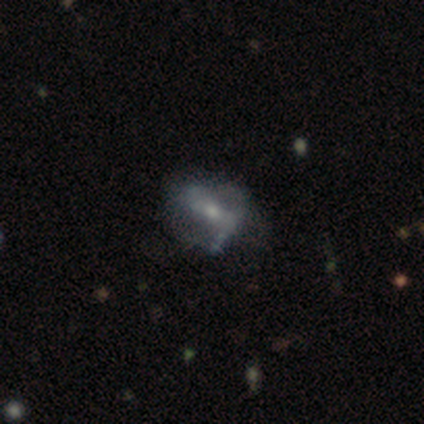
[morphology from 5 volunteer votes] Volunteers were most divided on "bar" (2-way tie): weak: 50%, no: 50%, strong: 0%; "spiral arms" (2-way tie): yes: 50%, no: 50%; "spiral winding" (2-way tie): tight: 50%, medium: 50%, loose: 0%; "spiral arm count" (2-way tie): 2: 50%, can't tell: 50%, 1: 0%, 3: 0%, 4: 0%, more than 4: 0%. More confident: edge-on disk — no (100%); smooth or featured — featured or disk (80%); bulge size — moderate (75%); merging — none (60%).